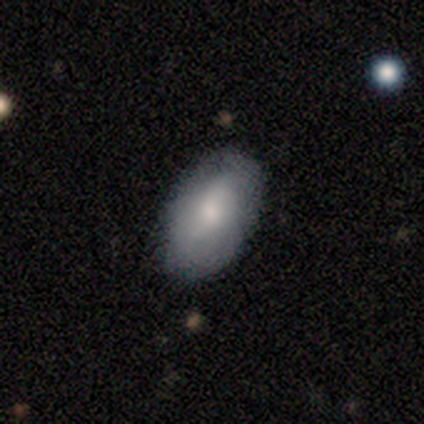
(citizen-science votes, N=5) Smooth or featured? 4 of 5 (80%) said smooth. How rounded? 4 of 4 (100%) said in between. Merging? 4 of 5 (80%) said none.